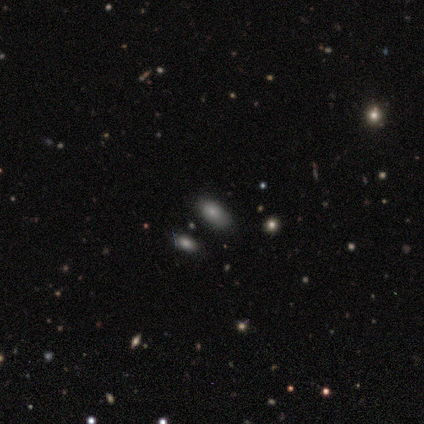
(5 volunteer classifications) smooth_or_featured: smooth (p=0.80) [alt: star or artifact p=0.20]
how_rounded: in between (p=1.00)
merging: none (p=0.75) [alt: minor disturbance p=0.25]